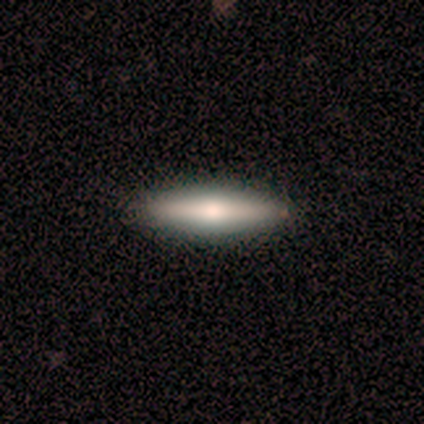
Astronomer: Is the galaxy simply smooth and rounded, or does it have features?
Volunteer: smooth — 50%, tied with featured or disk at 50%.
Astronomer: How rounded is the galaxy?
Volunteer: cigar-shaped — 100%.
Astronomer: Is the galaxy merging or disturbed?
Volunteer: none — 100%.